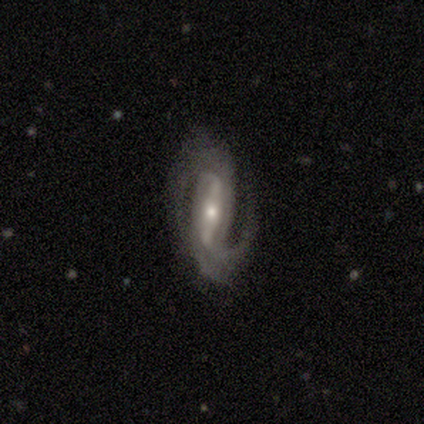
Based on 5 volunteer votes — This is likely a featured or disk galaxy (60%). It is likely not viewed edge-on (67%). Bar: clearly strong (100%). Spiral arm pattern: clearly yes (100%). Spiral arm count: clearly 2 (100%). Spiral winding: clearly medium (100%). Central bulge: possibly moderate (50%, tied with small). Merging: likely minor disturbance (67%).